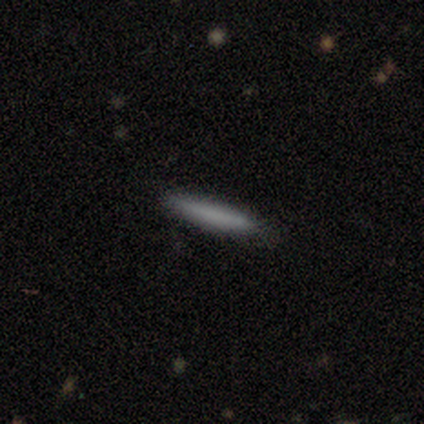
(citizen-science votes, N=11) Overall: smooth (64%). How rounded: cigar-shaped (86%). Merging: none (100%).